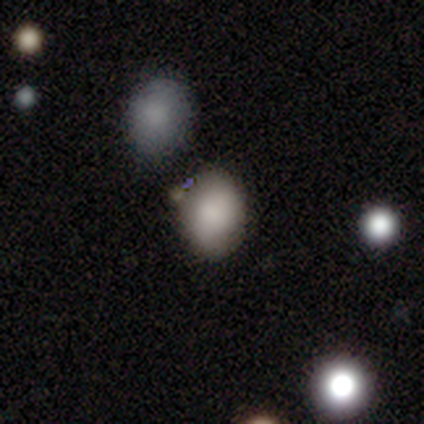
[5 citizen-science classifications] Smooth or featured? smooth (80%)
How rounded? in between (75%)
Merging? none (100%)